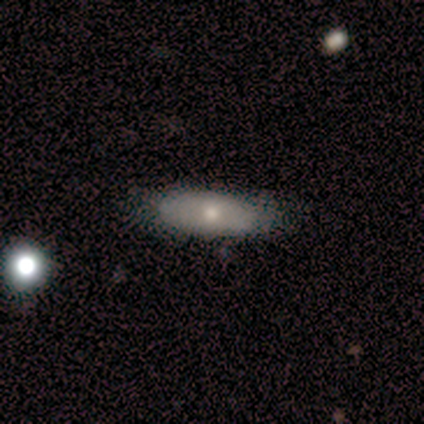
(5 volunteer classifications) Smooth or featured? 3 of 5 (60%) said featured or disk. Edge-on disk? 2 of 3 (67%) said no. Bar? 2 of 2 (100%) said no. Spiral arms? 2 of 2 (100%) said no. Bulge size? 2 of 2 (100%) said moderate. Merging? 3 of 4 (75%) said none.